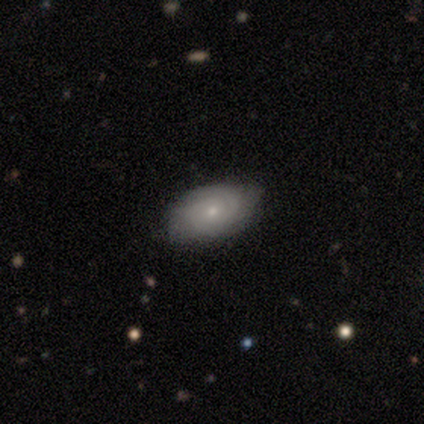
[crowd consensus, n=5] A featured or disk galaxy (80%) with no bar (100%), 2 (75%) tight (75%) spiral arms (100%) and a small central bulge (75%). Merging: none (100%).